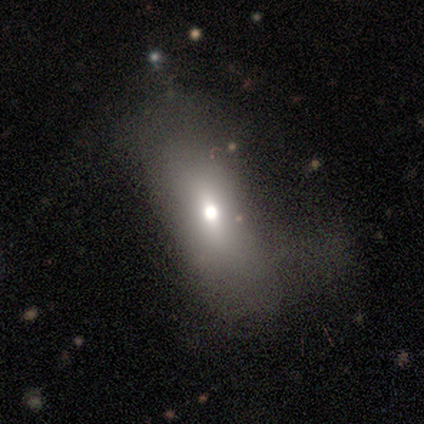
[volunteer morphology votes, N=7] This is possibly a smooth galaxy (57%). How rounded: likely in between (75%). Merging: likely minor disturbance (60%).